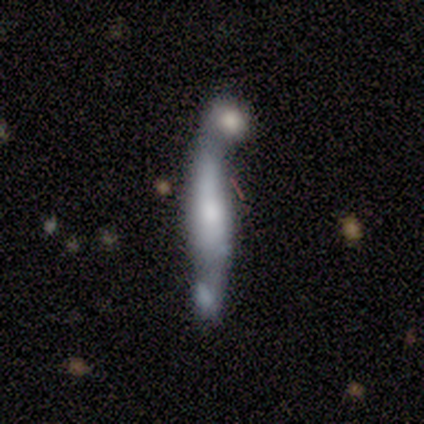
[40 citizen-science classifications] Q: Smooth or featured?
A: featured or disk (62%); runner-up: smooth (30%)
Q: Edge-on disk?
A: yes (64%); runner-up: no (36%)
Q: Edge-on bulge?
A: rounded (38%); runner-up: boxy (31%)
Q: Merging?
A: merger (49%); runner-up: none (11%)